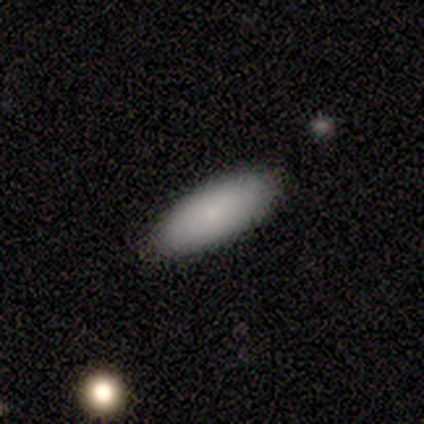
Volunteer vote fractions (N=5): A smooth galaxy with no disk features (80%) that is in between round and cigar-shaped (75%). Merging: none (50%, tied with minor disturbance).